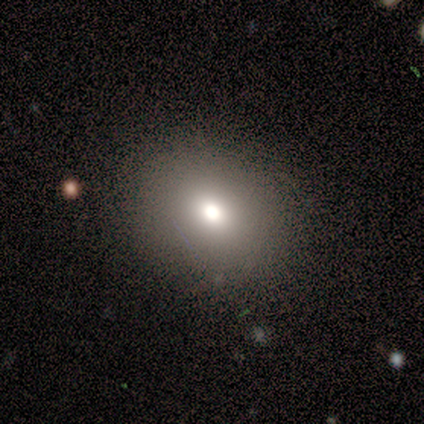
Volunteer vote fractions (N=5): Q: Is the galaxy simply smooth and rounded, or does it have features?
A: smooth — 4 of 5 (80%).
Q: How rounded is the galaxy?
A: round — 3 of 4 (75%).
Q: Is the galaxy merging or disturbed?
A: none — 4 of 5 (80%).